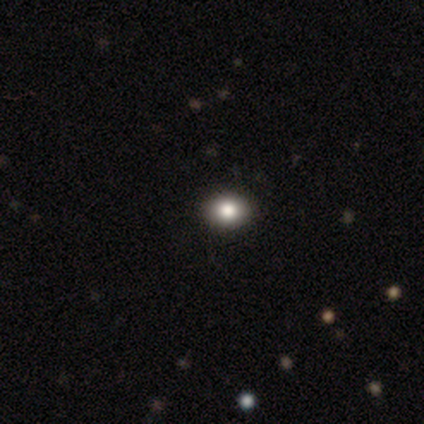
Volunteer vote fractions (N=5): A smooth galaxy with no disk features (80%) that is round (75%). Merging: none (100%).